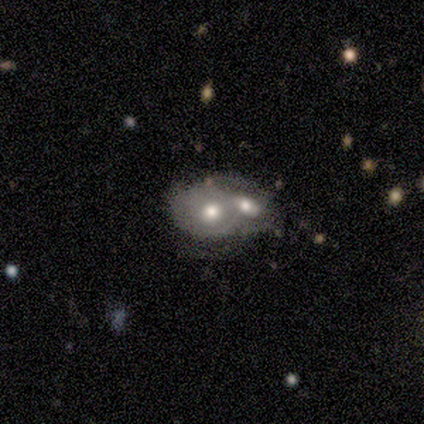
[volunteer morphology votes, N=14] This appears to be a smooth galaxy with no disk features (57%) that is in between round and cigar-shaped (62%). Merging: merger (93%).